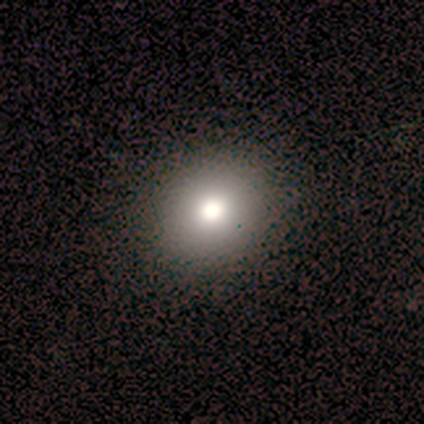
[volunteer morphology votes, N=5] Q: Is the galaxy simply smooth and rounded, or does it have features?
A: smooth — 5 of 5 (100%).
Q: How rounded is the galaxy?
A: in between — 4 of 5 (80%).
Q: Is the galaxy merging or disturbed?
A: none — 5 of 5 (100%).